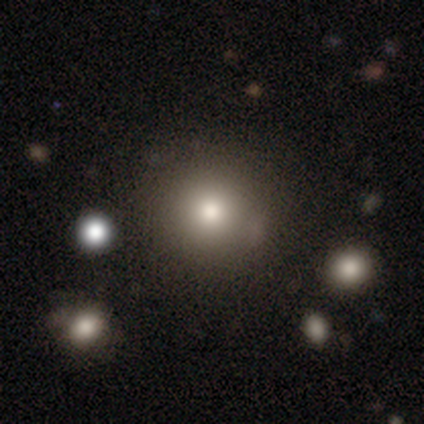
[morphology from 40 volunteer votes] This is likely a smooth galaxy (65%). How rounded: clearly round (85%). Merging: likely none (74%).